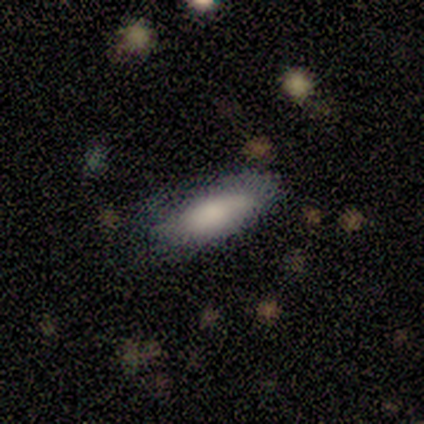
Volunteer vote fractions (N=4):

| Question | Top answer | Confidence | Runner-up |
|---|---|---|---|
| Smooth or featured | smooth | 75% | featured or disk (25%) |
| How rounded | in between | 67% | cigar-shaped (33%) |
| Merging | none | 50% | tied: minor disturbance (50%) |